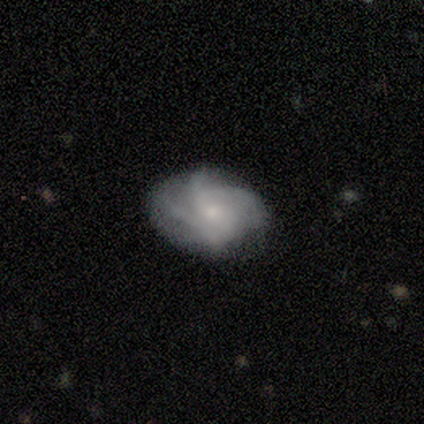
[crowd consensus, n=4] A smooth galaxy with no disk features (50%, tied with featured or disk) that is round (50%, tied with in between). Merging: none (75%).